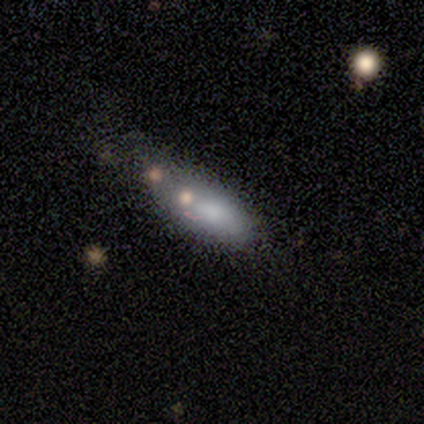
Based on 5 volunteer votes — Morphology: type=smooth (80%); roundness=in between (50%, tied with cigar-shaped); merging=none (40%, tied with minor disturbance).